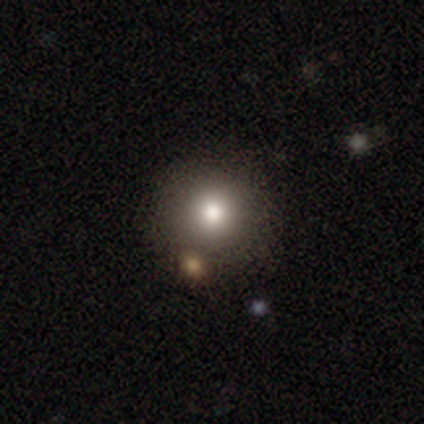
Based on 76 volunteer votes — smooth-or-featured: smooth: 72% | featured or disk: 14% | star or artifact: 13%
  how-rounded: round: 98% | in between: 2% | cigar-shaped: 0%
  merging: none: 47% | minor disturbance: 6% | merger: 5% | major disturbance: 0%